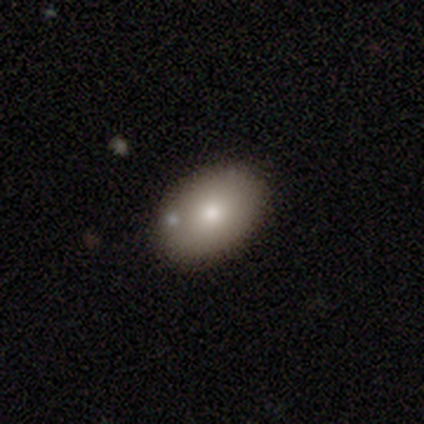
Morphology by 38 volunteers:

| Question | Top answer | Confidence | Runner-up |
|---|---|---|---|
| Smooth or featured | smooth | 79% | featured or disk (21%) |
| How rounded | in between | 77% | round (23%) |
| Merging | none | 74% | minor disturbance (24%) |